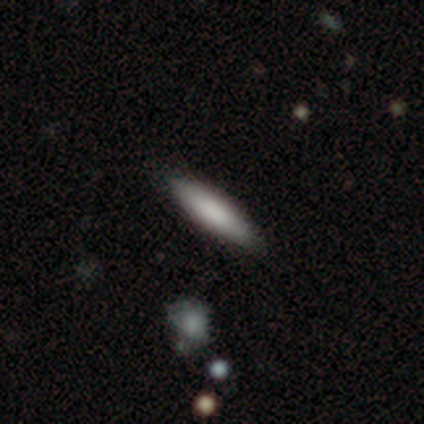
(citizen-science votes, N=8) smooth-or-featured: smooth: 88% | featured or disk: 12% | star or artifact: 0%
  how-rounded: cigar-shaped: 71% | in between: 29% | round: 0%
  merging: none: 75% | minor disturbance: 12% | major disturbance: 12% | merger: 0%